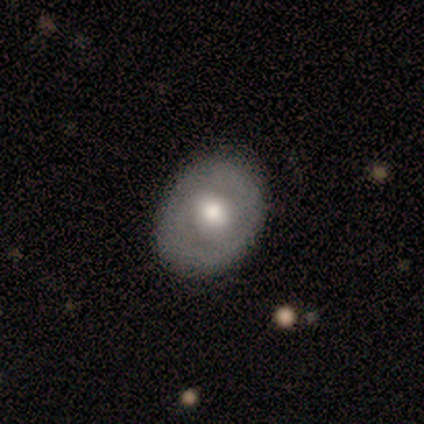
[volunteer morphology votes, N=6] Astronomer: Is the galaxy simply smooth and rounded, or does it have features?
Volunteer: smooth — 67%.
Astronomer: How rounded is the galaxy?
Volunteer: round — 50%, tied with in between at 50%.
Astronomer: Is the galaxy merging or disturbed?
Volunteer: none — 67%.